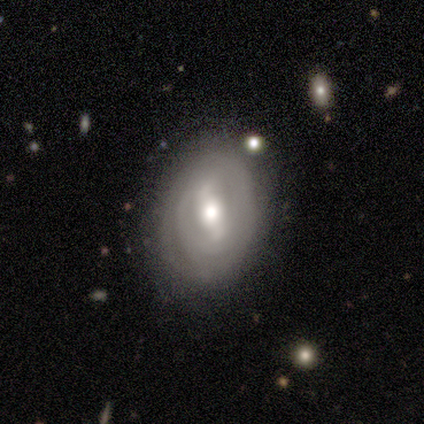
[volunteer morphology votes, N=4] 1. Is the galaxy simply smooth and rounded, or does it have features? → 75% featured or disk, 25% smooth, 0% star or artifact.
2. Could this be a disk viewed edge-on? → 100% no, 0% yes.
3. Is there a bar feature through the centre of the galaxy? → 67% strong, 33% weak, 0% no.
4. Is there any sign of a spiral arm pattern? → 67% yes, 33% no.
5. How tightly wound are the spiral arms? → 50% tight (tied), 50% medium (tied), 0% loose.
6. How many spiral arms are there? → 50% 2 (tied), 50% can't tell (tied), 0% 1, 0% 3, 0% 4, 0% more than 4.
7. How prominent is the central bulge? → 67% moderate, 33% small, 0% dominant, 0% large, 0% none.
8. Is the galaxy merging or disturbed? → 75% none, 25% minor disturbance, 0% major disturbance, 0% merger.